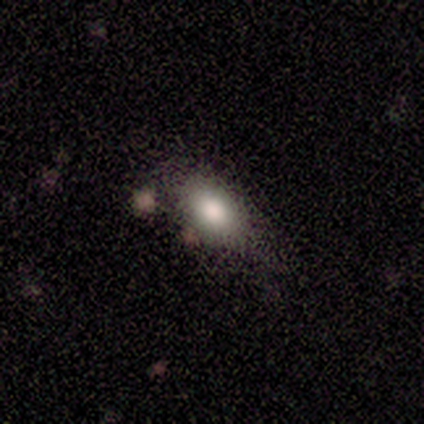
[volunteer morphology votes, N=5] Overall: smooth (100%). How rounded: in between (100%). Merging: none (60%; minor disturbance 40%).